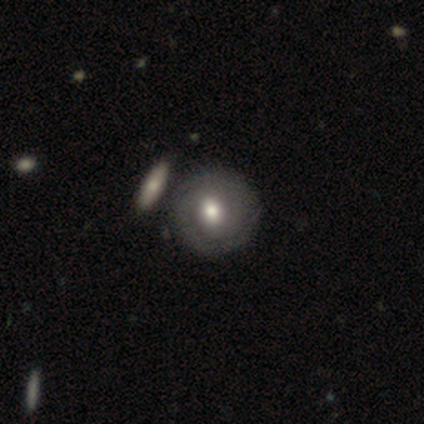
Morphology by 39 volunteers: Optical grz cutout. It shows a featured or disk galaxy (51%) with no bar (60%), 2 (50%) tight (83%) spiral arms (90%) and a moderate central bulge (70%). Merging: none (43%).